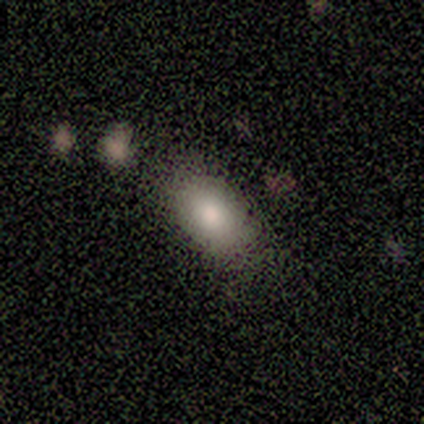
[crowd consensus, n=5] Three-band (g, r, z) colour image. It shows a smooth galaxy with no disk features (80%) that is in between round and cigar-shaped (100%). Merging: none (60%).